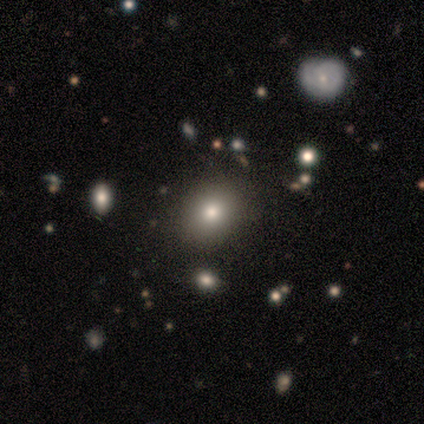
Q: Smooth or featured?
A: smooth (80%); runner-up: star or artifact (20%)
Q: How rounded?
A: round (100%)
Q: Merging?
A: none (75%); runner-up: merger (25%)